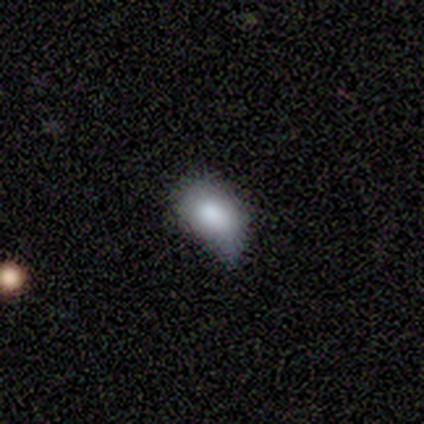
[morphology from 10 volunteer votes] Smooth or featured? 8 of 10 (80%) said smooth. How rounded? 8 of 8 (100%) said in between. Merging? 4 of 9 (44%, tied with minor disturbance) said none.